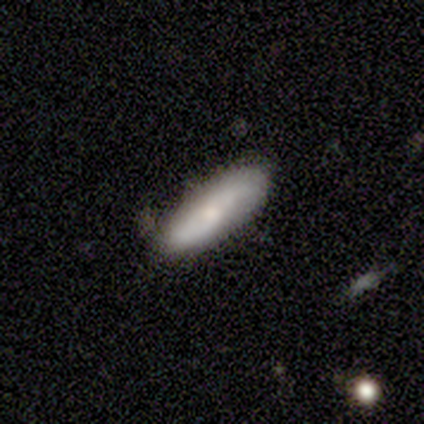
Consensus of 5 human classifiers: Smooth or featured? featured or disk (60%)
Edge-on disk? no (100%)
Bar? no (67%)
Spiral arms? yes (100%)
Spiral winding? loose (100%)
Spiral arm count? 2 (100%)
Bulge size? moderate (100%)
Merging? none (60%)